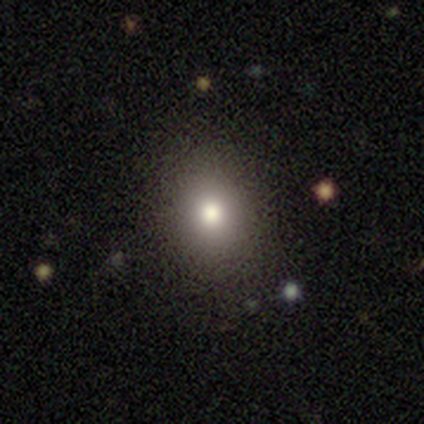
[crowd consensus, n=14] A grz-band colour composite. It shows a smooth galaxy with no disk features (79%) that is round (64%). Merging: none (92%).